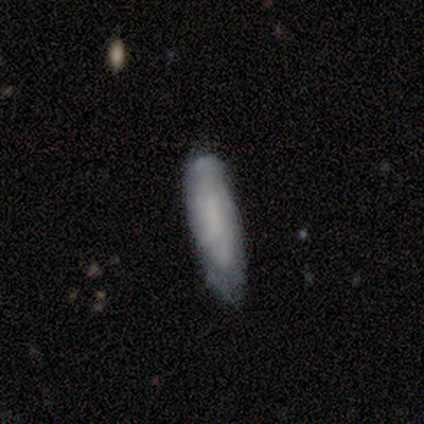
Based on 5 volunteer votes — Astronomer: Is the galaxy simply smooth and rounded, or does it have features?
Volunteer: smooth — 100%.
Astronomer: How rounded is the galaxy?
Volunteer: cigar-shaped — 60% (runner-up: in between, 40%).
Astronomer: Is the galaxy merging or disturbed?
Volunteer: none — 80%.